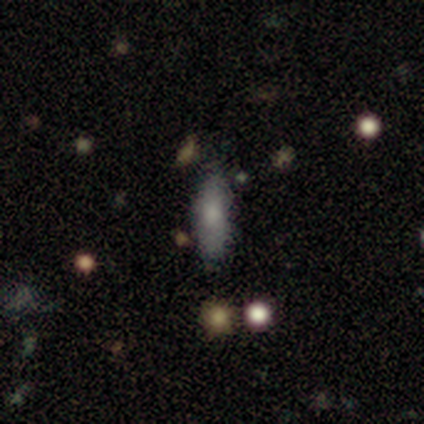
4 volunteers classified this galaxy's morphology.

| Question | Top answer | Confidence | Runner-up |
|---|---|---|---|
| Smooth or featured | smooth | 100% | — |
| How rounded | in between | 75% | cigar-shaped (25%) |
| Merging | none | 50% | tied: minor disturbance (50%) |